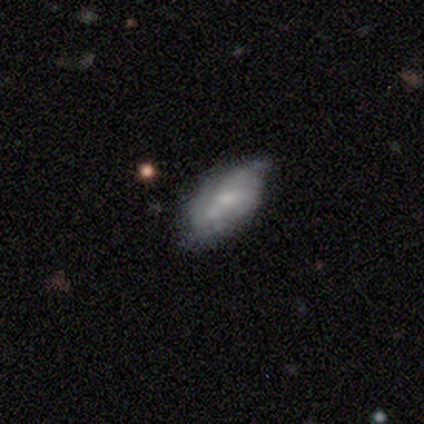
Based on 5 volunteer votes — smooth-or-featured: featured or disk: 80% | smooth: 20% | star or artifact: 0%
  disk-edge-on: no: 100% | yes: 0%
    bar: weak: 50% (tied) | no: 50% (tied) | strong: 0%
    has-spiral-arms: yes: 50% (tied) | no: 50% (tied)
      spiral-winding: tight: 50% (tied) | loose: 50% (tied) | medium: 0%
      spiral-arm-count: 3: 100% | 1: 0% | 2: 0% | 4: 0% | more than 4: 0% | can't tell: 0%
    bulge-size: small: 75% | moderate: 25% | dominant: 0% | large: 0% | none: 0%
  merging: minor disturbance: 100% | none: 0% | major disturbance: 0% | merger: 0%